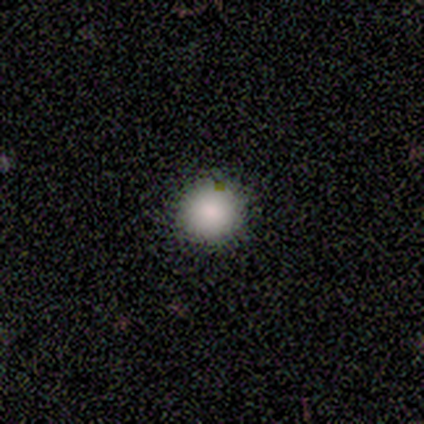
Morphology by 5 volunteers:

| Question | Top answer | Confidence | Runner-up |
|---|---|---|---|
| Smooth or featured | smooth | 100% | — |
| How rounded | round | 100% | — |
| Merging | none | 100% | — |